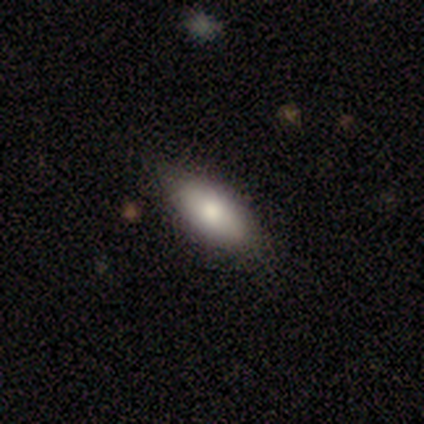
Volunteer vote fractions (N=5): A smooth galaxy with no disk features (100%) that is in between round and cigar-shaped (100%). Merging: none (60%).